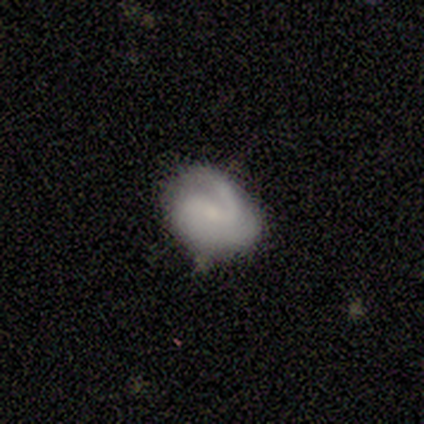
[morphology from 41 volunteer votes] Smooth or featured?
  - featured or disk: 59% *
  - smooth: 34%
  - star or artifact: 7%
Edge-on disk?
  - no: 100% *
  - yes: 0%
Bar?
  - no: 58% *
  - weak: 38%
  - strong: 4%
Spiral arms?
  - yes: 92% *
  - no: 8%
Spiral winding?
  - tight: 36% *
  - medium: 32%
  - loose: 32%
Spiral arm count?
  - 2: 55% *
  - 1: 41%
  - can't tell: 5%
  - 3: 0%
  - 4: 0%
  - more than 4: 0%
Bulge size?
  - small: 54% *
  - none: 29%
  - moderate: 17%
  - dominant: 0%
  - large: 0%
Merging?
  - none: 66% *
  - minor disturbance: 24%
  - major disturbance: 11%
  - merger: 0%